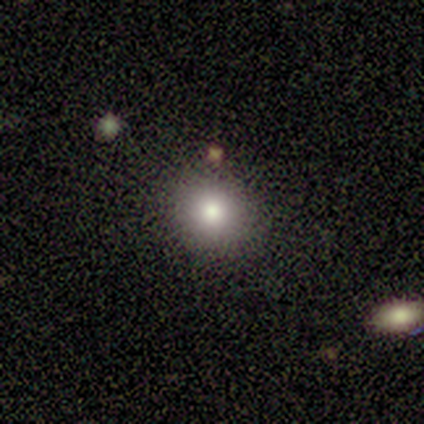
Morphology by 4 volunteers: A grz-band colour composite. It shows a smooth galaxy with no disk features (100%) that is round (100%). Merging: none (100%).